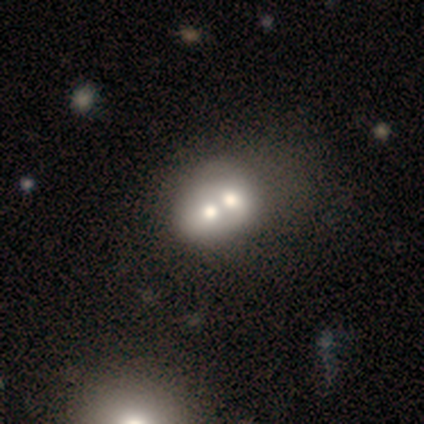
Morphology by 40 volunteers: Smooth or featured? 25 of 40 (62%) said smooth. How rounded? 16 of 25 (64%) said round. Merging? 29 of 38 (76%) said merger.